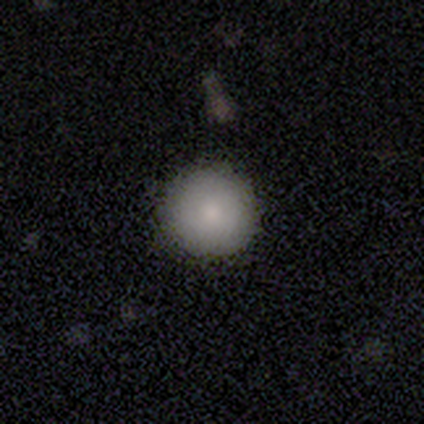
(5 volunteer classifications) Smooth or featured?
  - smooth: 100% *
  - featured or disk: 0%
  - star or artifact: 0%
How rounded?
  - round: 100% *
  - in between: 0%
  - cigar-shaped: 0%
Merging?
  - none: 80% *
  - minor disturbance: 20%
  - major disturbance: 0%
  - merger: 0%